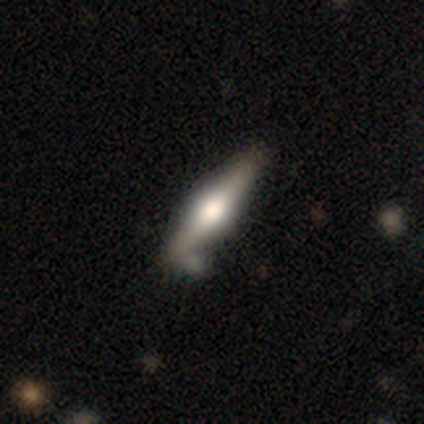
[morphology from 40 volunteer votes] Smooth or featured? 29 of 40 (72%) said featured or disk. Edge-on disk? 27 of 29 (93%) said yes. Edge-on bulge? 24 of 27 (89%) said rounded. Merging? 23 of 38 (61%) said none.